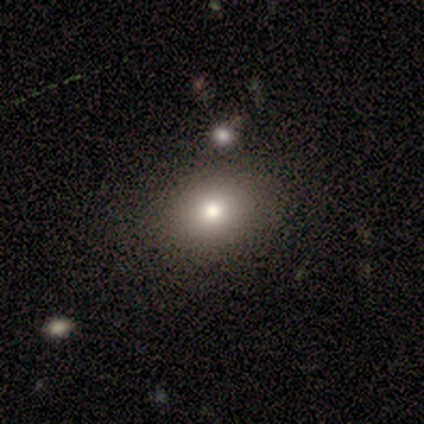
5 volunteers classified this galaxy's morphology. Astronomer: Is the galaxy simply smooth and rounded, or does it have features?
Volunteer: smooth — 60% (runner-up: star or artifact, 40%).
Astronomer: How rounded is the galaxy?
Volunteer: in between — 100%.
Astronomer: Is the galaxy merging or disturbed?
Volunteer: none — 100%.